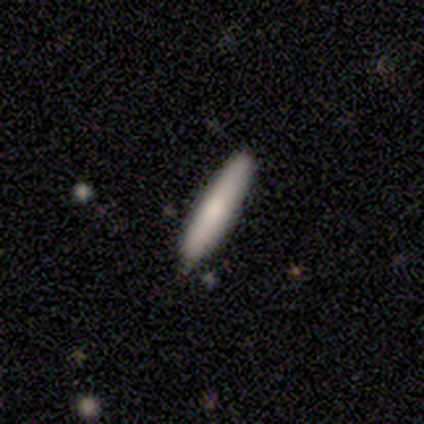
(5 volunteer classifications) Smooth or featured?
  - smooth: 60% *
  - featured or disk: 40%
  - star or artifact: 0%
How rounded?
  - cigar-shaped: 100% *
  - round: 0%
  - in between: 0%
Merging?
  - none: 60% *
  - minor disturbance: 40%
  - major disturbance: 0%
  - merger: 0%